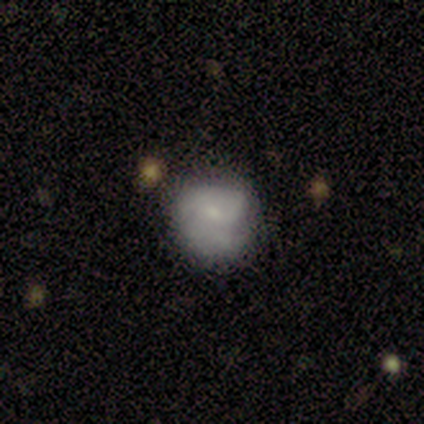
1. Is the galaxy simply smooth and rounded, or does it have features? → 62% smooth, 30% featured or disk, 8% star or artifact.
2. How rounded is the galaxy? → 72% round, 28% in between, 0% cigar-shaped.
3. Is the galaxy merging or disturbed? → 65% none, 19% minor disturbance, 14% major disturbance, 3% merger.